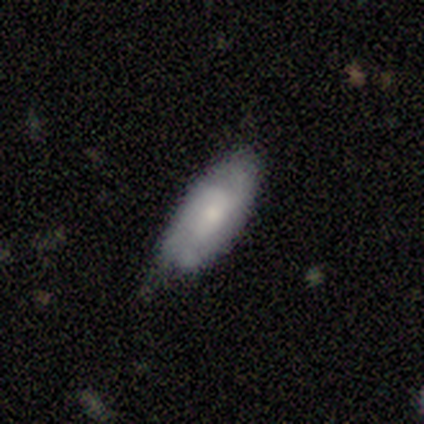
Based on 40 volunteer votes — smooth-or-featured: featured or disk: 55% | smooth: 40% | star or artifact: 5%
  disk-edge-on: no: 95% | yes: 5%
    bar: no: 62% | weak: 33% | strong: 5%
    has-spiral-arms: yes: 95% | no: 5%
      spiral-winding: tight: 50% | medium: 30% | loose: 20%
      spiral-arm-count: 2: 40% | 3: 30% | can't tell: 30% | 1: 0% | 4: 0% | more than 4: 0%
    bulge-size: small: 52% | moderate: 29% | none: 14% | large: 5% | dominant: 0%
  merging: none: 58% | minor disturbance: 42% | major disturbance: 0% | merger: 0%